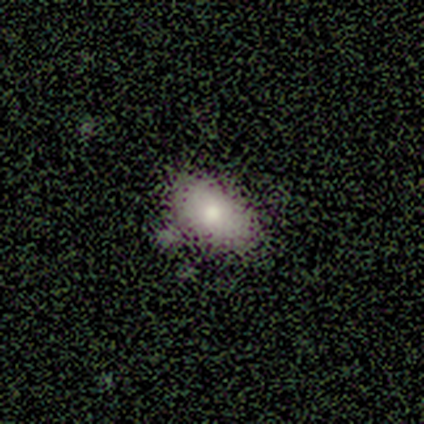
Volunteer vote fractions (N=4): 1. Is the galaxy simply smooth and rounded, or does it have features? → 75% smooth, 25% star or artifact, 0% featured or disk.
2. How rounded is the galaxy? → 67% in between, 33% cigar-shaped, 0% round.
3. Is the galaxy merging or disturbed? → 67% none, 33% minor disturbance, 0% major disturbance, 0% merger.